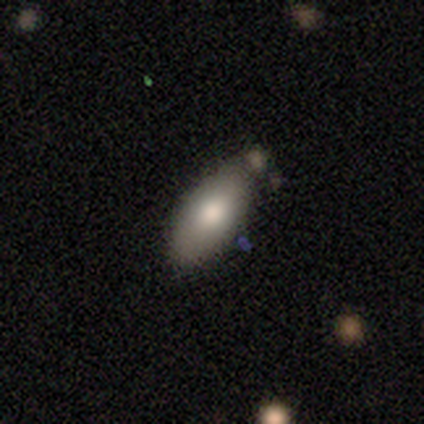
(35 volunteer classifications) Volunteers were most divided on "smooth or featured": smooth: 80%, featured or disk: 17%, star or artifact: 3%. More confident: how rounded — in between (89%); merging — none (88%).